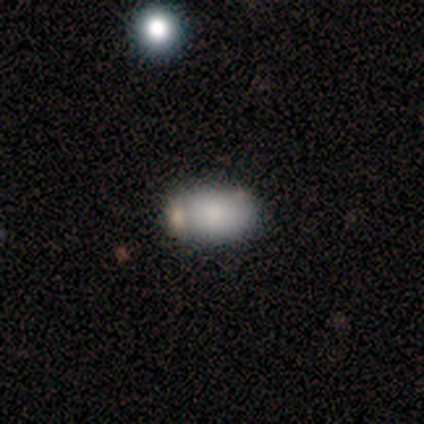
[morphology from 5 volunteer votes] smooth_or_featured: smooth (p=1.00)
how_rounded: in between (p=1.00)
merging: none (p=0.40) [tied with: merger p=0.40]